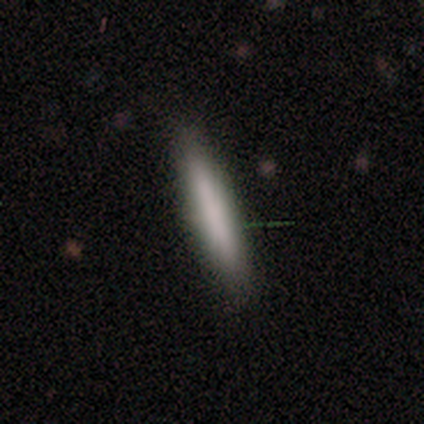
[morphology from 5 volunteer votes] Smooth or featured?
  - smooth: 100% *
  - featured or disk: 0%
  - star or artifact: 0%
How rounded?
  - cigar-shaped: 100% *
  - round: 0%
  - in between: 0%
Merging?
  - none: 100% *
  - minor disturbance: 0%
  - major disturbance: 0%
  - merger: 0%